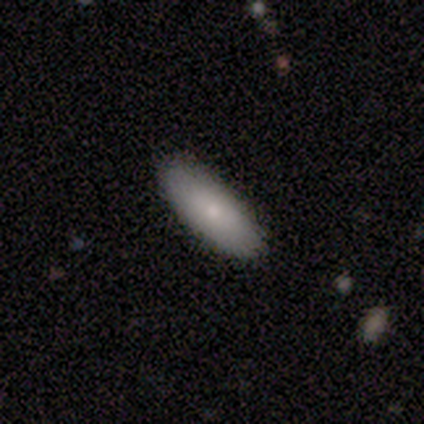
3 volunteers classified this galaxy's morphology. This appears to be a smooth galaxy with no disk features (67%) that is in between round and cigar-shaped (50%, tied with cigar-shaped). Merging: none (100%).